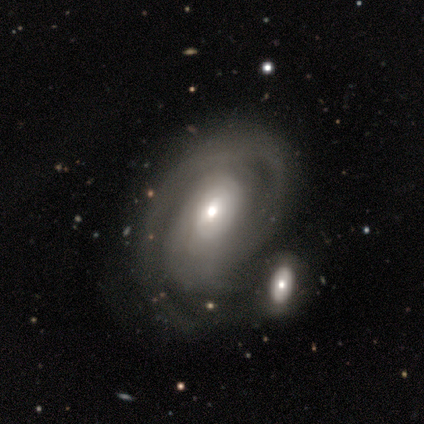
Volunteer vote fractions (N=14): This appears to be a featured or disk galaxy (86%) with no bar (64%), medium (75%) spiral arms (73%) and a moderate central bulge (45%, tied with small). Merging: merger (50%).